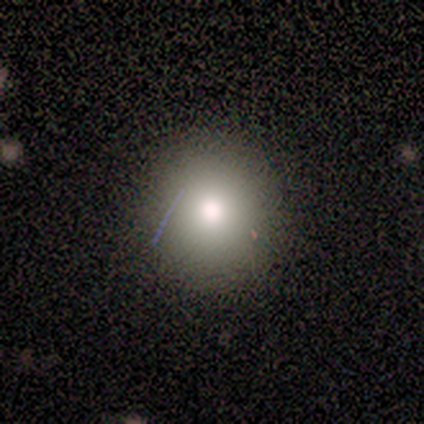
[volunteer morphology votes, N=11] smooth 82%, star or artifact 18%, featured or disk 0%. Down the decision tree: how rounded — round (100%); merging — none (100%).